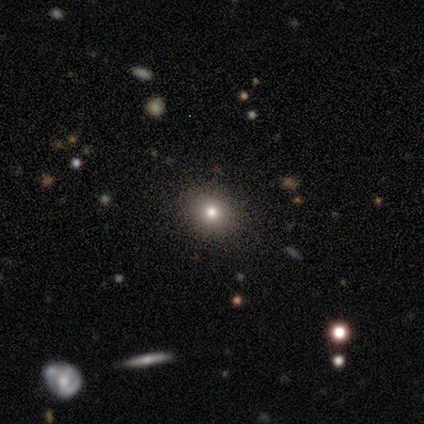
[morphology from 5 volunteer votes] Smooth or featured: smooth — 40% (tied with star or artifact — 40%)
How rounded: in between — 100%
Merging: none — 67% (minor disturbance — 33%)